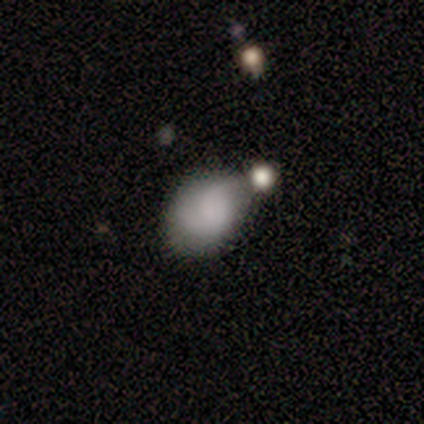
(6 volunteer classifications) Smooth or featured? smooth (67%)
How rounded? in between (100%)
Merging? none (60%)